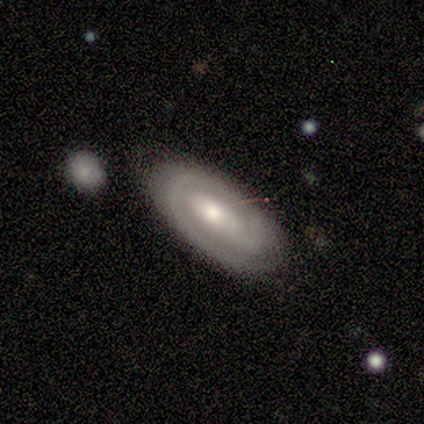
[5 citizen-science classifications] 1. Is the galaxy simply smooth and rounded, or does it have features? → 100% featured or disk, 0% smooth, 0% star or artifact.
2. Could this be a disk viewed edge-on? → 100% no, 0% yes.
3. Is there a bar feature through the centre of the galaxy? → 80% no, 20% strong, 0% weak.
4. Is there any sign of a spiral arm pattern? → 100% yes, 0% no.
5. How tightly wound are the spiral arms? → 100% tight, 0% medium, 0% loose.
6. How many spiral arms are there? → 100% 1, 0% 2, 0% 3, 0% 4, 0% more than 4, 0% can't tell.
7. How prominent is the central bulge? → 60% moderate, 40% small, 0% dominant, 0% large, 0% none.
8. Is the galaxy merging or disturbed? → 100% none, 0% minor disturbance, 0% major disturbance, 0% merger.